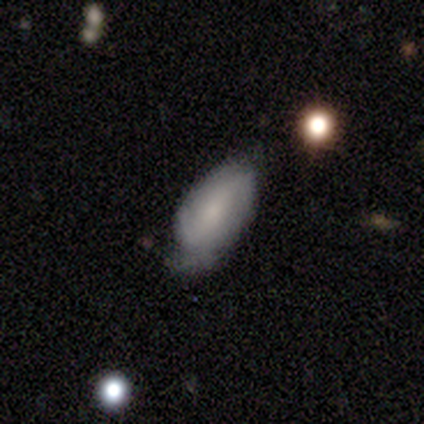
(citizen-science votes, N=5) This appears to be a smooth galaxy with no disk features (60%) that is in between round and cigar-shaped (100%). Merging: minor disturbance (75%).